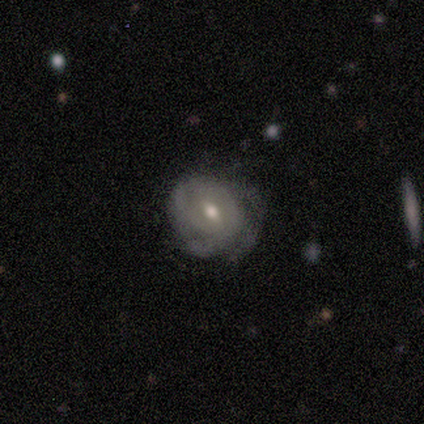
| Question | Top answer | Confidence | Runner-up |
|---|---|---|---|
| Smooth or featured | featured or disk | 100% | — |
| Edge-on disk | no | 100% | — |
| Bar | weak | 100% | — |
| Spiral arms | yes | 80% | no (20%) |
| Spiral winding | tight | 75% | loose (25%) |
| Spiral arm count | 2 | 25% | tied: 3 (25%), 4 (25%), can't tell (25%) |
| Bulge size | moderate | 60% | small (40%) |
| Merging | none | 40% | tied: major disturbance (40%) |